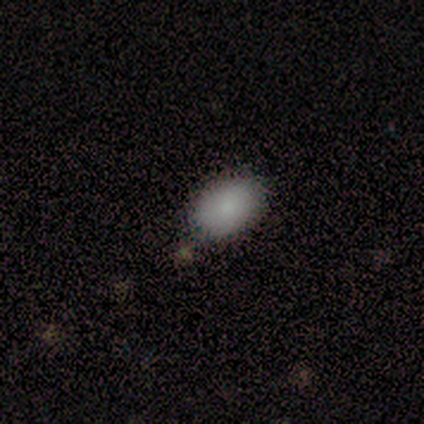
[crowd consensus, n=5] Smooth or featured?
  - smooth: 60% *
  - featured or disk: 20%
  - star or artifact: 20%
How rounded?
  - round: 67% *
  - in between: 33%
  - cigar-shaped: 0%
Merging?
  - none: 100% *
  - minor disturbance: 0%
  - major disturbance: 0%
  - merger: 0%